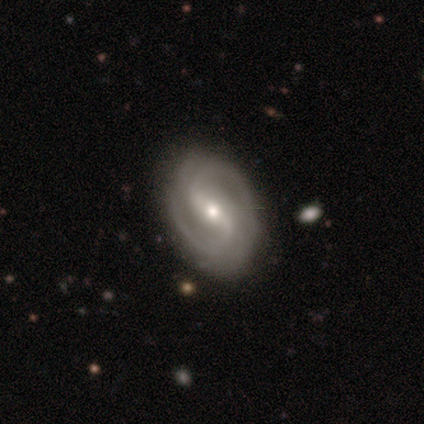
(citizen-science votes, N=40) A featured or disk galaxy (95%) with a strong bar (58%), 2 (76%) medium (47%) spiral arms (100%) and a small central bulge (50%). Merging: none (82%).